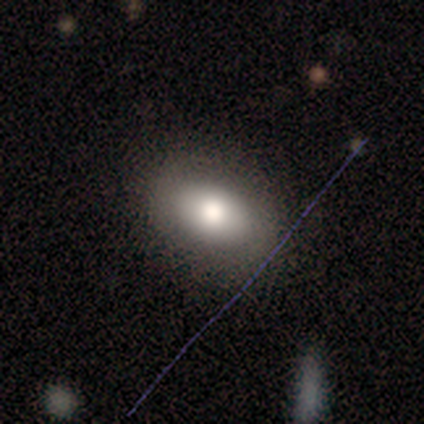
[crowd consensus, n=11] This is likely a smooth galaxy (64%). How rounded: clearly in between (100%). Merging: clearly none (100%).